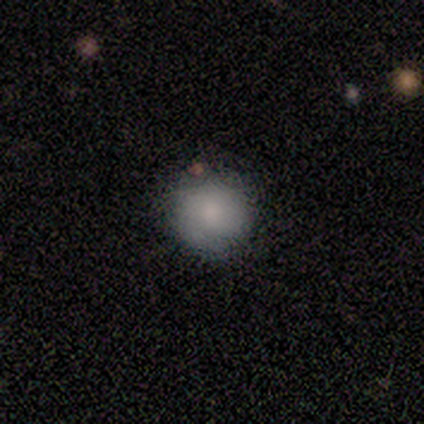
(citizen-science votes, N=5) Volunteers were most divided on "smooth or featured": smooth: 80%, featured or disk: 20%, star or artifact: 0%. More confident: how rounded — round (100%); merging — none (80%).